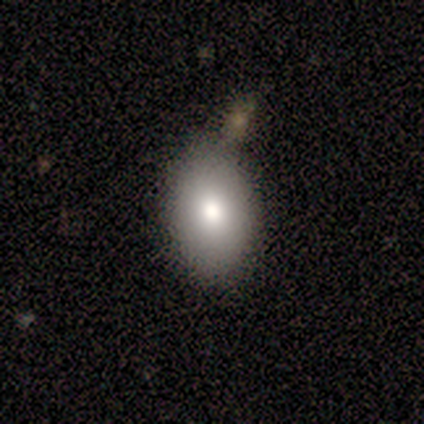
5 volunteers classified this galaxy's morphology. A smooth galaxy with no disk features (80%) that is in between round and cigar-shaped (100%). Merging: none (100%).